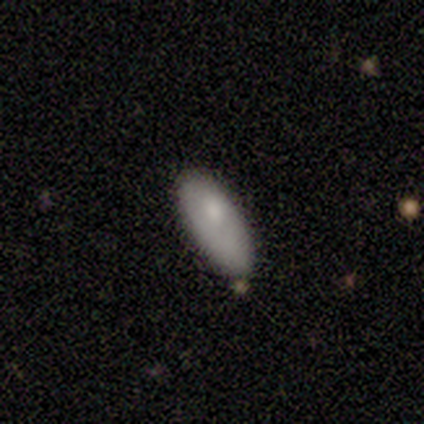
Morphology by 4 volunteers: smooth_or_featured: smooth (p=0.75) [alt: featured or disk p=0.25]
how_rounded: in between (p=1.00)
merging: none (p=0.25) [tied with: minor disturbance p=0.25, major disturbance p=0.25, merger p=0.25]